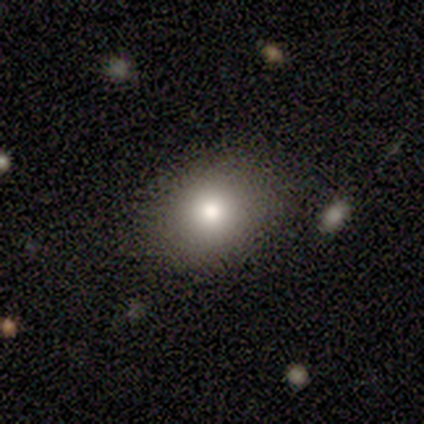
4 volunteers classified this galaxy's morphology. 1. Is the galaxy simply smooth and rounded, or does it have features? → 100% smooth, 0% featured or disk, 0% star or artifact.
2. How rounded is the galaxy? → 75% in between, 25% round, 0% cigar-shaped.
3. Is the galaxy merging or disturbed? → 75% none, 25% minor disturbance, 0% major disturbance, 0% merger.